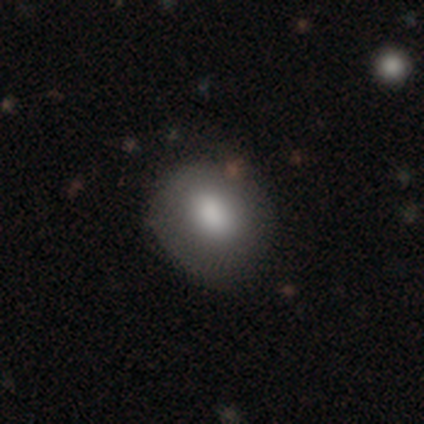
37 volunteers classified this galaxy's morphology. smooth_or_featured: smooth (p=0.73) [alt: featured or disk p=0.27]
how_rounded: round (p=0.74) [alt: in between p=0.26]
merging: none (p=0.49) [alt: minor disturbance p=0.08]